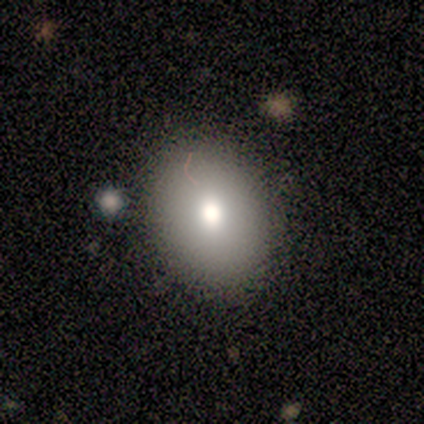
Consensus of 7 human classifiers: Morphology: type=smooth (86%); roundness=round (50%, tied with in between); merging=none (100%).